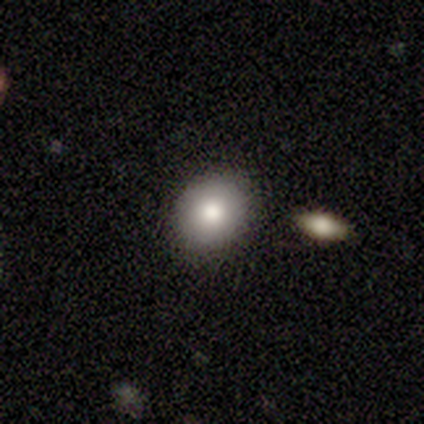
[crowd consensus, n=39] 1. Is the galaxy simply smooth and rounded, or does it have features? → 77% smooth, 18% featured or disk, 5% star or artifact.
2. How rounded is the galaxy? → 77% round, 23% in between, 0% cigar-shaped.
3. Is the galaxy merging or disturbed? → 86% none, 8% minor disturbance, 3% major disturbance, 3% merger.